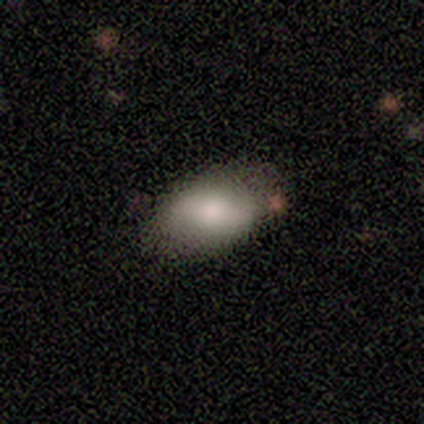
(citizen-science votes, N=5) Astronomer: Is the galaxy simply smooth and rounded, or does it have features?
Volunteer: smooth — 60% (runner-up: featured or disk, 40%).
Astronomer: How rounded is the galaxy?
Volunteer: in between — 100%.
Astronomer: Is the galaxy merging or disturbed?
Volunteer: minor disturbance — 60% (runner-up: none, 40%).